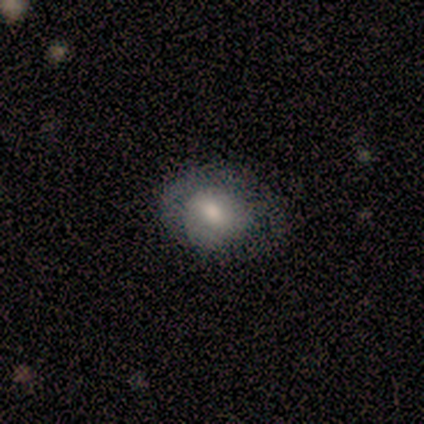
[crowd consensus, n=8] Volunteers were most divided on "smooth or featured" (2-way tie): smooth: 38%, star or artifact: 38%, featured or disk: 25%. More confident: merging — none (80%); how rounded — in between (67%).